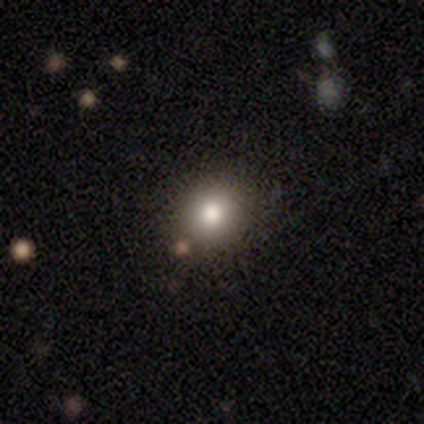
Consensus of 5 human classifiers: A smooth galaxy with no disk features (60%) that is round (67%).

Vote fractions:
- Smooth or featured? smooth: 60% / star or artifact: 40% / featured or disk: 0%
- How rounded? round: 67% / in between: 33% / cigar-shaped: 0%
- Merging? none: 100% / minor disturbance: 0% / major disturbance: 0% / merger: 0%